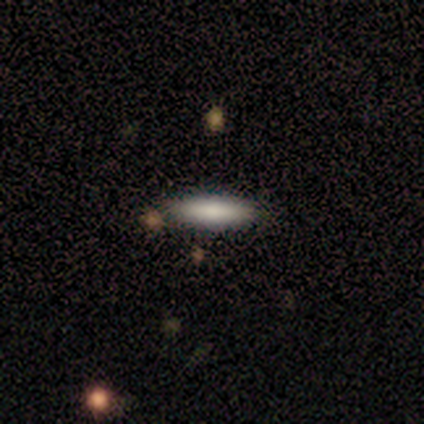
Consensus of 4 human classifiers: This appears to be a smooth galaxy with no disk features (100%) that is cigar-shaped (75%). Merging: none (100%).